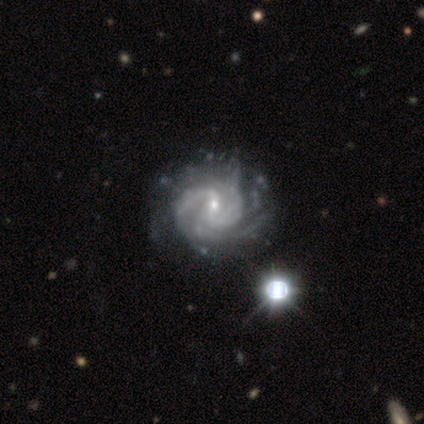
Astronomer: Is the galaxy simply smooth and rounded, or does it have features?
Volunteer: featured or disk — 80%.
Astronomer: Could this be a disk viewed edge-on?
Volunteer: no — 100%.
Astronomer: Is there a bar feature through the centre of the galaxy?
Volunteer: weak — 100%.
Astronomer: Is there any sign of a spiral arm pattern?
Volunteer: yes — 100%.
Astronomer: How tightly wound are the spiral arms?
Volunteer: tight — 50%.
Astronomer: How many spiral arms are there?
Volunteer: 1 — 25%, tied with 3, more than 4 and can't tell at 25%.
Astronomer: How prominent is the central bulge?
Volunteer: small — 75%.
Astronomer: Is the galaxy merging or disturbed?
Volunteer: none — 60%.